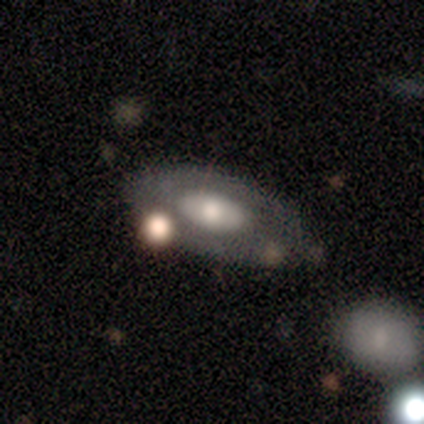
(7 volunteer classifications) Smooth or featured?
  - smooth: 86% *
  - featured or disk: 14%
  - star or artifact: 0%
How rounded?
  - in between: 100% *
  - round: 0%
  - cigar-shaped: 0%
Merging?
  - none: 43% * (tied)
  - minor disturbance: 43% * (tied)
  - major disturbance: 14%
  - merger: 0%